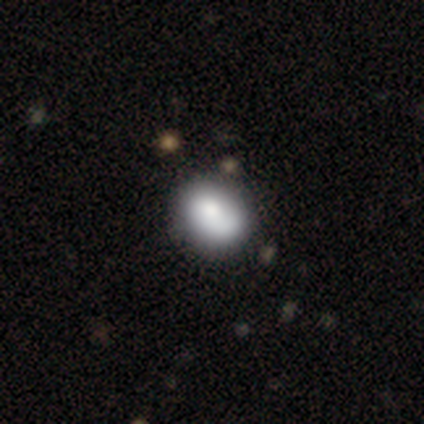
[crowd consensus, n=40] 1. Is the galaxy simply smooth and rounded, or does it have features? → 70% smooth, 22% featured or disk, 8% star or artifact.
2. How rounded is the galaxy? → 57% in between, 43% round, 0% cigar-shaped.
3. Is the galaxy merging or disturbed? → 41% none, 16% minor disturbance, 11% merger, 8% major disturbance.